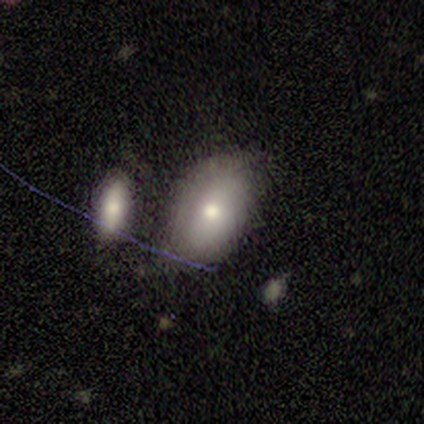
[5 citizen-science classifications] Volunteers were most divided on "merging": minor disturbance: 50%, none: 25%, merger: 25%, major disturbance: 0%. More confident: how rounded — in between (100%); smooth or featured — smooth (60%).